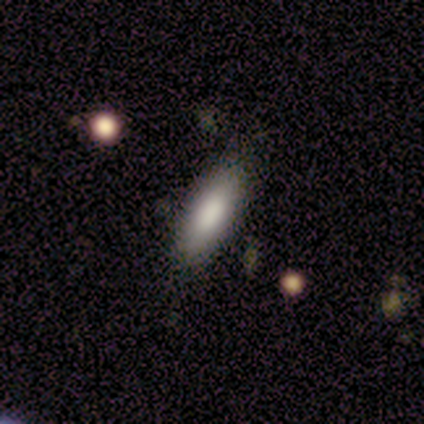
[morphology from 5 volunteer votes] Smooth or featured? smooth (40%, tied with featured or disk)
How rounded? in between (100%)
Merging? none (75%)